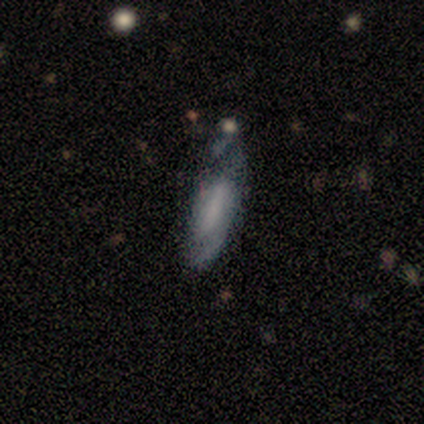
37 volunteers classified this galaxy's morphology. Volunteers were most divided on "spiral arm count" (2-way tie): 1: 36%, can't tell: 36%, 2: 29%, 3: 0%, 4: 0%, more than 4: 0%. Remaining: edge-on disk — no (79%); spiral arms — yes (74%); smooth or featured — featured or disk (65%); bulge size — none (63%); spiral winding — tight (57%); merging — minor disturbance (46%); bar — no (42%).